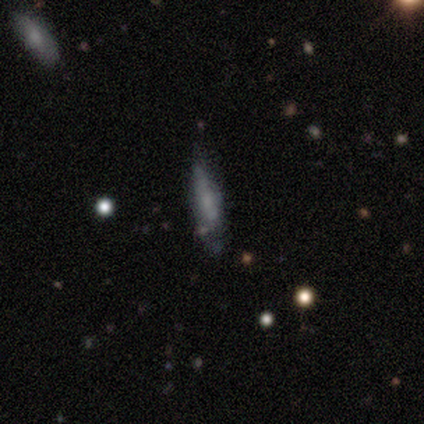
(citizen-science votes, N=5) This is clearly a featured or disk galaxy (80%). It is possibly viewed edge-on (50%, tied with no). Edge-on bulge: clearly none (100%). Merging: possibly minor disturbance (50%).